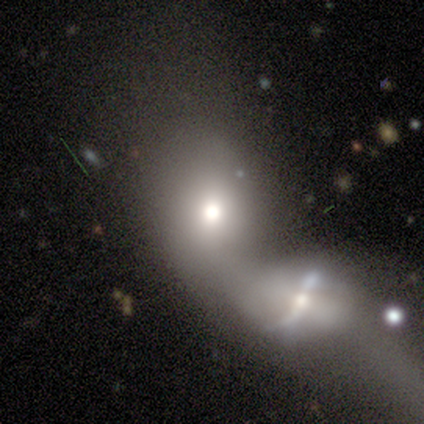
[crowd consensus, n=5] Morphology: type=smooth (60%); roundness=in between (67%); merging=merger (100%).